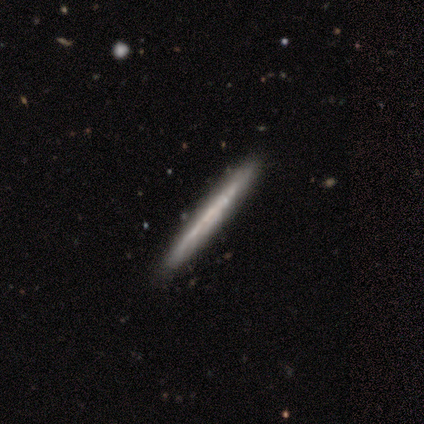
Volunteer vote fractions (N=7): smooth-or-featured: featured or disk: 86% | smooth: 14% | star or artifact: 0%
  disk-edge-on: yes: 100% | no: 0%
    edge-on-bulge: none: 83% | rounded: 17% | boxy: 0%
  merging: none: 100% | minor disturbance: 0% | major disturbance: 0% | merger: 0%